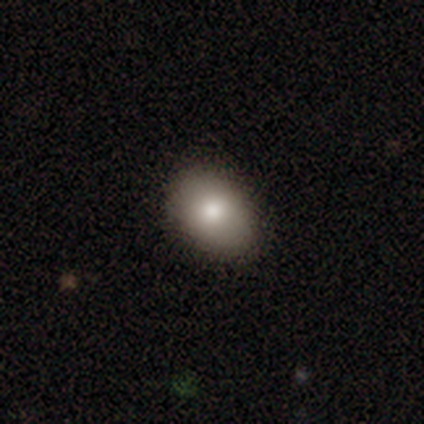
This appears to be a smooth galaxy with no disk features (83%) that is in between round and cigar-shaped (73%). Merging: none (91%).